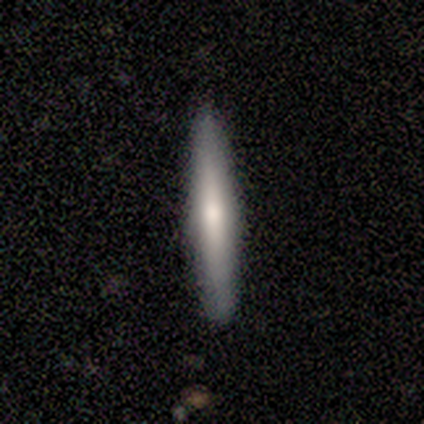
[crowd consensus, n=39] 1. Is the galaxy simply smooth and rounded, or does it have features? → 51% featured or disk, 41% smooth, 8% star or artifact.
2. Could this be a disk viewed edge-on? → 100% yes, 0% no.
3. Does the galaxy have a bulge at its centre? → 65% rounded, 25% none, 10% boxy.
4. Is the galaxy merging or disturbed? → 89% none, 11% minor disturbance, 0% major disturbance, 0% merger.